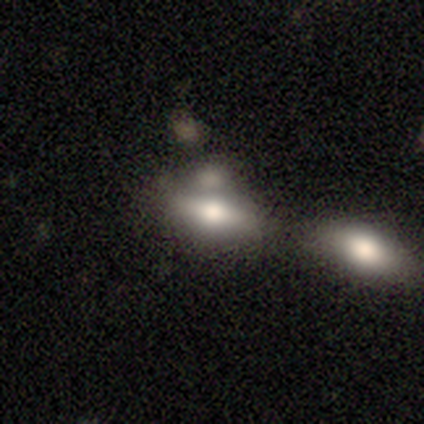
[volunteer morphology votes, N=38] Smooth or featured? smooth (76%)
How rounded? in between (90%)
Merging? merger (44%)